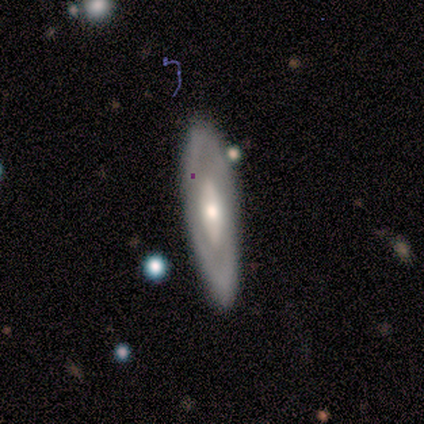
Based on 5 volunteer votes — Volunteers were most divided on "bar": no: 75%, weak: 25%, strong: 0%. More confident: edge-on disk — no (100%); merging — none (100%); smooth or featured — featured or disk (80%); spiral arms — no (75%); bulge size — moderate (75%).